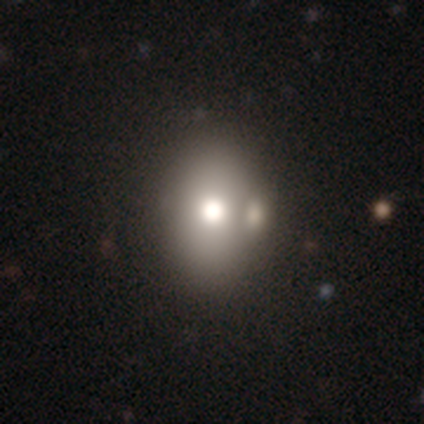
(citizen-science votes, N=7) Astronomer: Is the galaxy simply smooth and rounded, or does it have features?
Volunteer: smooth — 86%.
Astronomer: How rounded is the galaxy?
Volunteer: in between — 83%.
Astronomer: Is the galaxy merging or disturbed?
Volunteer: none — 86%.